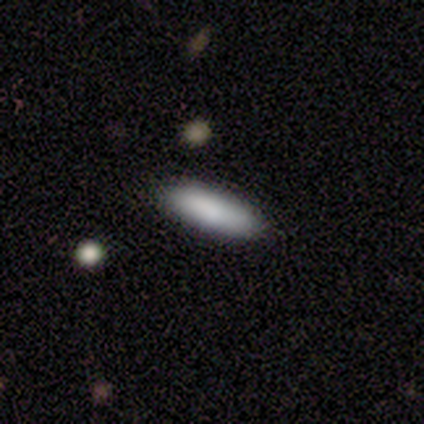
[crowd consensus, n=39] This appears to be a smooth galaxy with no disk features (85%) that is cigar-shaped (52%). Merging: none (89%).